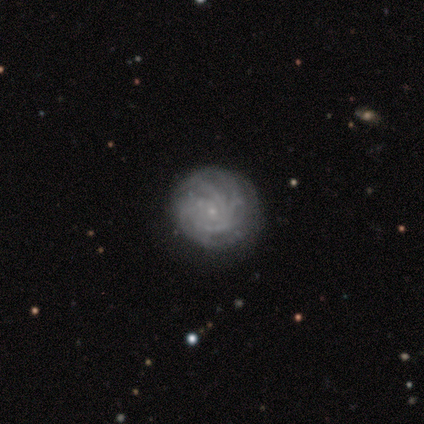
Smooth or featured? 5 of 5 (100%) said featured or disk. Edge-on disk? 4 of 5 (80%) said no. Bar? 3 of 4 (75%) said no. Spiral arms? 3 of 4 (75%) said yes. Spiral winding? 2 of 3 (67%) said tight. Spiral arm count? 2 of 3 (67%) said 4. Bulge size? 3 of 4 (75%) said small. Merging? 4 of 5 (80%) said none.